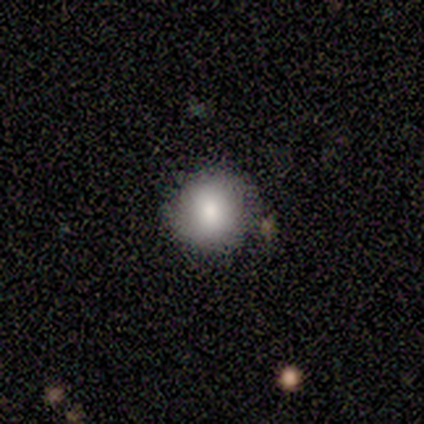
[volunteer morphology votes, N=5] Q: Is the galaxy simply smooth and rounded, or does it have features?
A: smooth — 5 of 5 (100%).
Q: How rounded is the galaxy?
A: round — 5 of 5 (100%).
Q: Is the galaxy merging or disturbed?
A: none — 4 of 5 (80%).